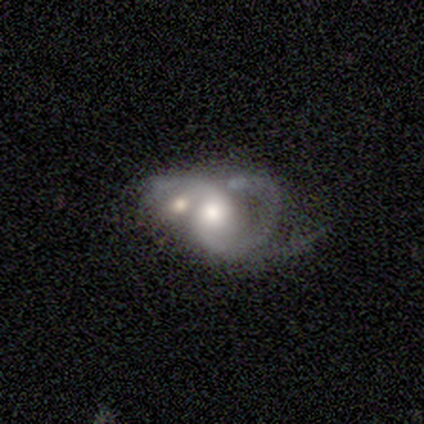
Smooth or featured: featured or disk — 100%
Edge-on disk: no — 100%
Bar: no — 100%
Spiral arms: no — 60% (yes — 40%)
Bulge size: moderate — 80% (large — 20%)
Merging: merger — 80% (major disturbance — 20%)